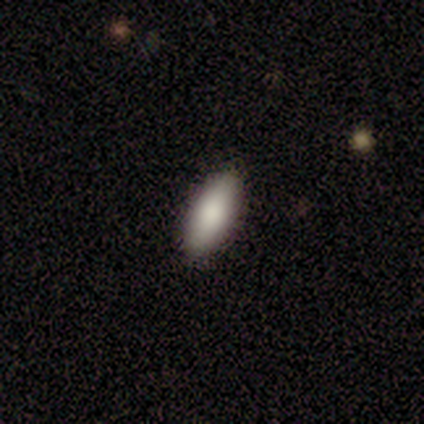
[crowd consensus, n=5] Morphology: type=smooth (100%); roundness=in between (100%); merging=none (80%).